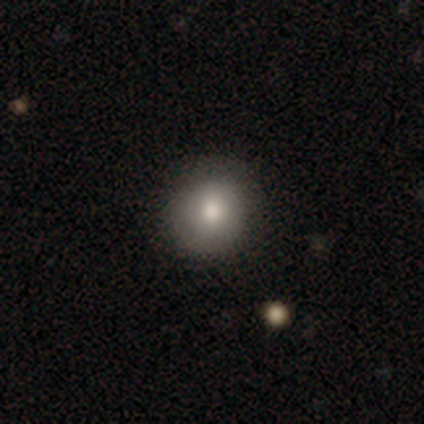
smooth_or_featured: smooth (p=0.75) [alt: featured or disk p=0.25]
how_rounded: round (p=1.00)
merging: none (p=0.75) [alt: minor disturbance p=0.25]